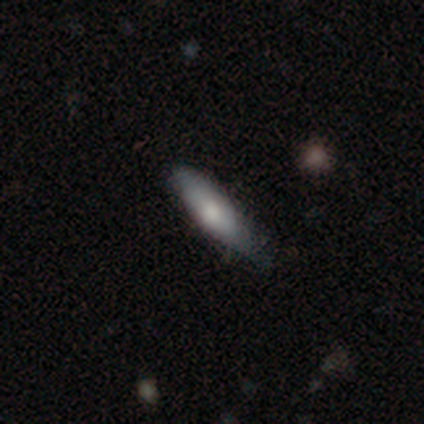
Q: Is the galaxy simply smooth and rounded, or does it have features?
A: smooth — 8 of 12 (67%).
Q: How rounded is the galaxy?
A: cigar-shaped — 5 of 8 (62%).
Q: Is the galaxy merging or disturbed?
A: none — 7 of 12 (58%).